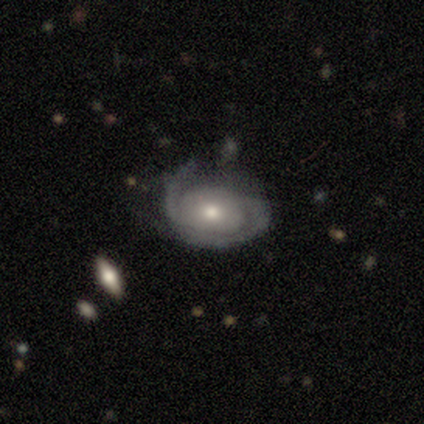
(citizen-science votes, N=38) smooth_or_featured: featured or disk (p=0.74) [alt: smooth p=0.24]
disk_edge_on: no (p=0.93) [alt: yes p=0.07]
bar: no (p=0.85) [alt: weak p=0.12]
has_spiral_arms: yes (p=0.77) [alt: no p=0.23]
spiral_winding: tight (p=0.80) [alt: medium p=0.10]
spiral_arm_count: 2 (p=0.60) [alt: can't tell p=0.25]
bulge_size: moderate (p=0.54) [alt: small p=0.38]
merging: none (p=0.57) [alt: minor disturbance p=0.32]